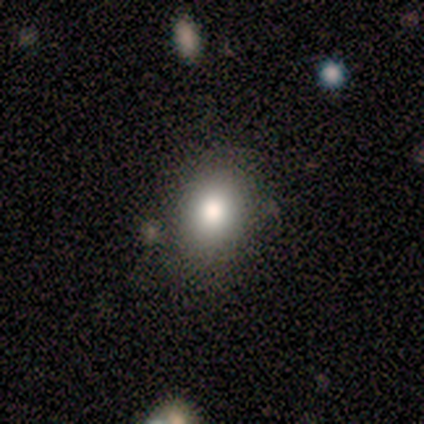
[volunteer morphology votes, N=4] Q: Smooth or featured?
A: smooth (75%); runner-up: star or artifact (25%)
Q: How rounded?
A: in between (67%); runner-up: round (33%)
Q: Merging?
A: none (100%)